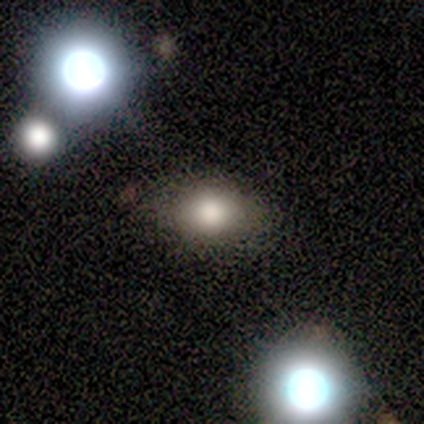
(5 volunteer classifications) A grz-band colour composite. It shows a smooth galaxy with no disk features (80%) that is in between round and cigar-shaped (75%). Merging: none (60%).